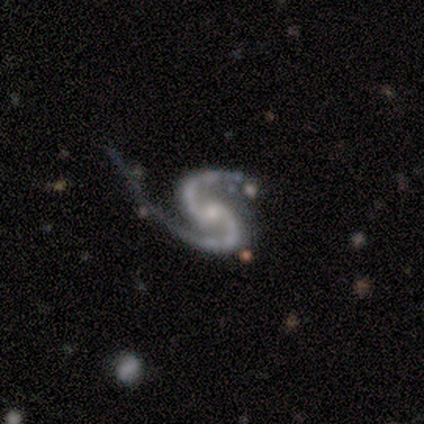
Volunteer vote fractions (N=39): Smooth or featured?
  - featured or disk: 97% *
  - smooth: 3%
  - star or artifact: 0%
Edge-on disk?
  - no: 92% *
  - yes: 8%
Bar?
  - weak: 43% * (tied)
  - no: 43% * (tied)
  - strong: 14%
Spiral arms?
  - yes: 100% *
  - no: 0%
Spiral winding?
  - medium: 71% *
  - loose: 26%
  - tight: 3%
Spiral arm count?
  - 2: 100% *
  - 1: 0%
  - 3: 0%
  - 4: 0%
  - more than 4: 0%
  - can't tell: 0%
Bulge size?
  - small: 60% *
  - moderate: 34%
  - none: 6%
  - dominant: 0%
  - large: 0%
Merging?
  - major disturbance: 56% *
  - none: 31%
  - minor disturbance: 10%
  - merger: 3%